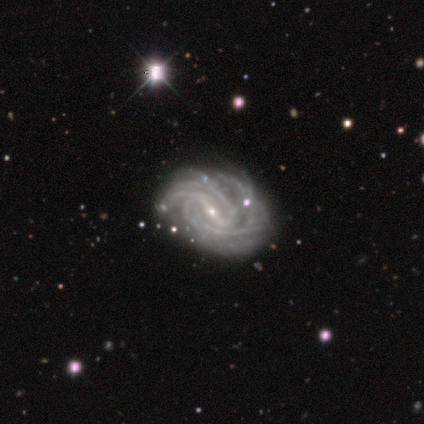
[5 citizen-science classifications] Smooth or featured? 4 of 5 (80%) said featured or disk. Edge-on disk? 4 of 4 (100%) said no. Bar? 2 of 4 (50%) said strong. Spiral arms? 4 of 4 (100%) said yes. Spiral winding? 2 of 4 (50%, tied with medium) said tight. Spiral arm count? 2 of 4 (50%) said more than 4. Bulge size? 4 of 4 (100%) said small. Merging? 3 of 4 (75%) said none.